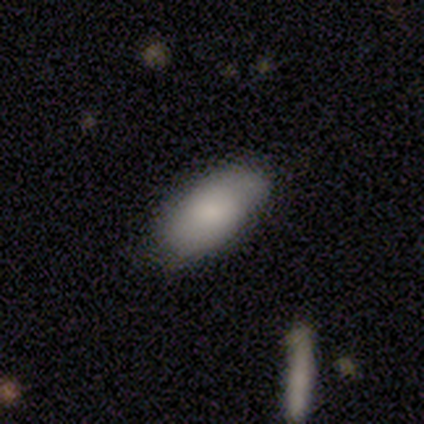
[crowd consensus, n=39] smooth-or-featured: smooth: 85% | featured or disk: 10% | star or artifact: 5%
  how-rounded: in between: 97% | round: 3% | cigar-shaped: 0%
  merging: none: 89% | minor disturbance: 8% | major disturbance: 3% | merger: 0%